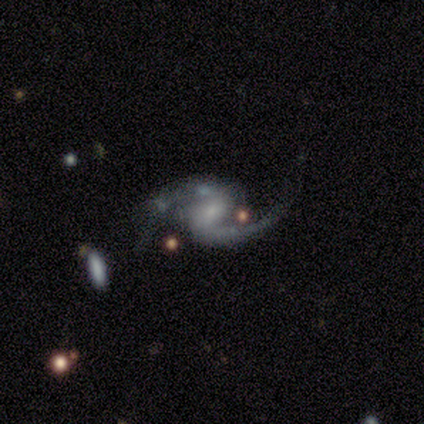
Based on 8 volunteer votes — Morphology: type=featured or disk (100%); edge-on=no (100%); bar=weak (50%, tied with no); spiral arms=yes (100%); winding=loose (75%); arm count=2 (100%); bulge=small (62%); merging=none (62%).